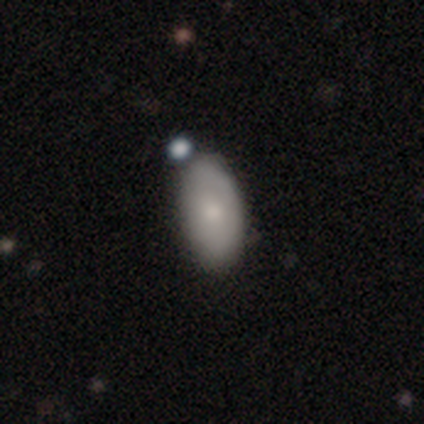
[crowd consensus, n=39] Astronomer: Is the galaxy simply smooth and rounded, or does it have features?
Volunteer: smooth — 82%.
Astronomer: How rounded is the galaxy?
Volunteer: in between — 91%.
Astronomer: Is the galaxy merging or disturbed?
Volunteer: none — 41%.